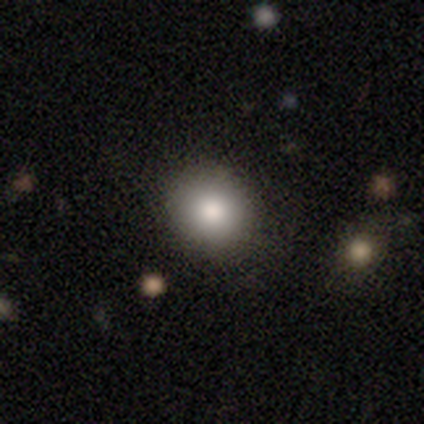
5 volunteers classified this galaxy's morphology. type=smooth (80%); roundness=round (75%); merging=none (100%).